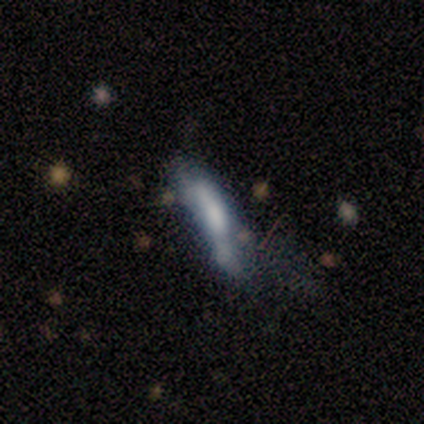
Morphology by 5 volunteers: Q: Smooth or featured?
A: featured or disk (60%); runner-up: smooth (20%)
Q: Edge-on disk?
A: no (100%)
Q: Bar?
A: no (67%); runner-up: weak (33%)
Q: Spiral arms?
A: no (100%)
Q: Bulge size?
A: none (67%); runner-up: moderate (33%)
Q: Merging?
A: none (25%); tied with: minor disturbance (25%); major disturbance (25%); merger (25%)